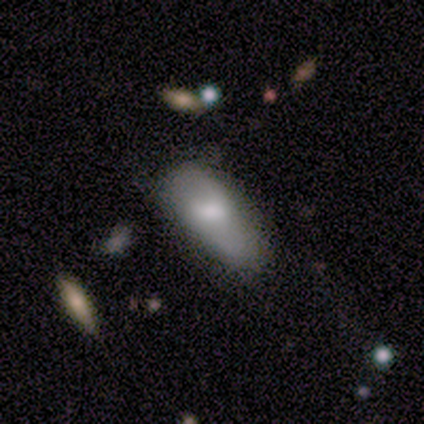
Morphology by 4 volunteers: A smooth galaxy with no disk features (50%, tied with featured or disk) that is in between round and cigar-shaped (100%). Merging: none (50%, tied with minor disturbance).